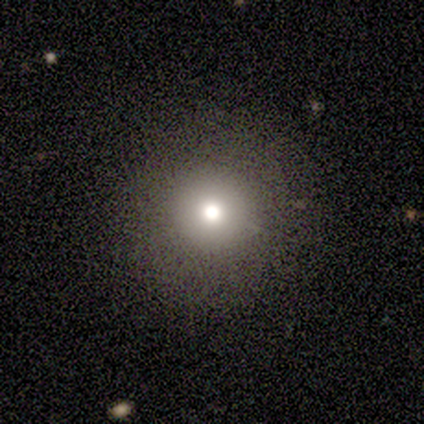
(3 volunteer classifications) Morphology: type=smooth (67%); roundness=round (100%); merging=none (100%).